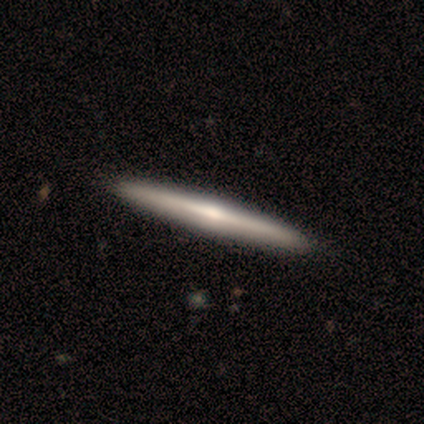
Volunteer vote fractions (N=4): This appears to be a smooth galaxy with no disk features (50%, tied with featured or disk) that is cigar-shaped (100%). Merging: none (100%).